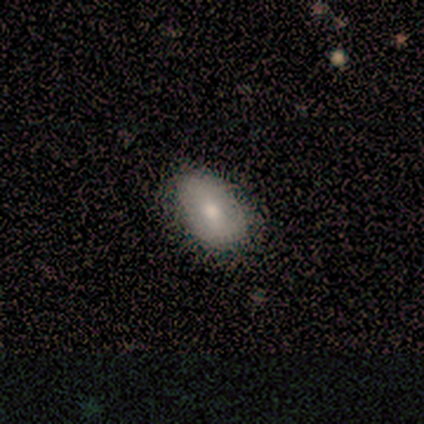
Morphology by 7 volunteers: Smooth or featured?
  - smooth: 86% *
  - star or artifact: 14%
  - featured or disk: 0%
How rounded?
  - in between: 83% *
  - round: 17%
  - cigar-shaped: 0%
Merging?
  - none: 83% *
  - minor disturbance: 17%
  - major disturbance: 0%
  - merger: 0%